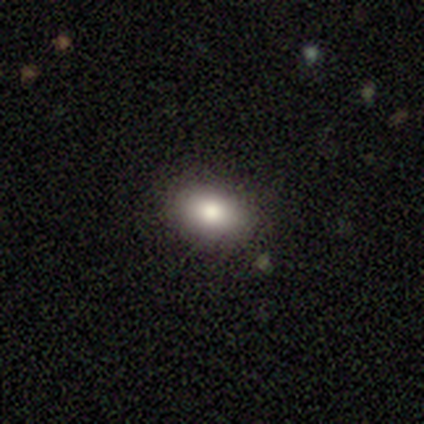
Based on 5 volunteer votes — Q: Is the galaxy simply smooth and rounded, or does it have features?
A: smooth — 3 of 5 (60%).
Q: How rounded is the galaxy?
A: in between — 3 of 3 (100%).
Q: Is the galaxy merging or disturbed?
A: none — 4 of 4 (100%).